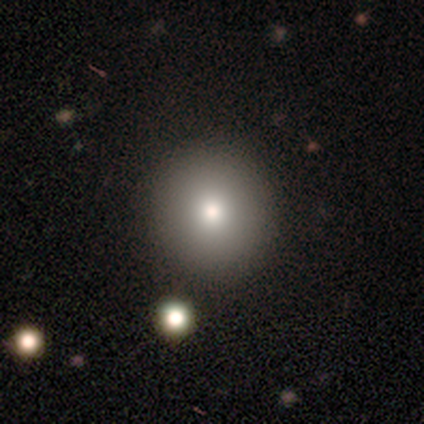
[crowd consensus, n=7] A smooth galaxy with no disk features (86%) that is round (83%).

Vote fractions:
- Smooth or featured? smooth: 86% / star or artifact: 14% / featured or disk: 0%
- How rounded? round: 83% / in between: 17% / cigar-shaped: 0%
- Merging? none: 100% / minor disturbance: 0% / major disturbance: 0% / merger: 0%